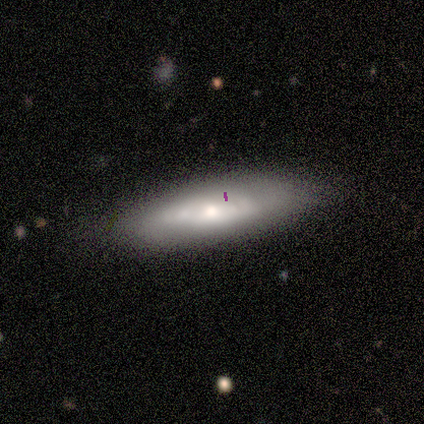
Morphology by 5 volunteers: A featured or disk galaxy (60%) viewed edge-on (67%) with a rounded central bulge (100%). Merging: none (100%).